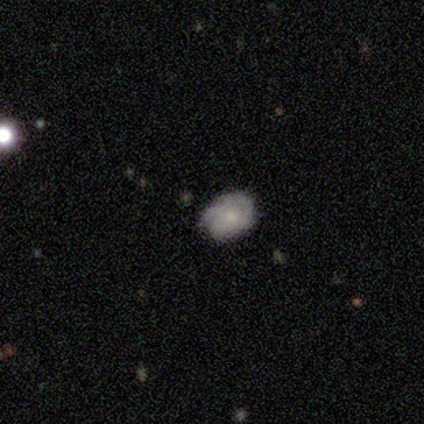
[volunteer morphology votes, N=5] Smooth or featured?
  - featured or disk: 60% *
  - smooth: 40%
  - star or artifact: 0%
Edge-on disk?
  - no: 100% *
  - yes: 0%
Bar?
  - no: 67% *
  - weak: 33%
  - strong: 0%
Spiral arms?
  - yes: 100% *
  - no: 0%
Spiral winding?
  - tight: 100% *
  - medium: 0%
  - loose: 0%
Spiral arm count?
  - can't tell: 100% *
  - 1: 0%
  - 2: 0%
  - 3: 0%
  - 4: 0%
  - more than 4: 0%
Bulge size?
  - small: 67% *
  - moderate: 33%
  - dominant: 0%
  - large: 0%
  - none: 0%
Merging?
  - none: 40% * (tied)
  - minor disturbance: 40% * (tied)
  - major disturbance: 20%
  - merger: 0%